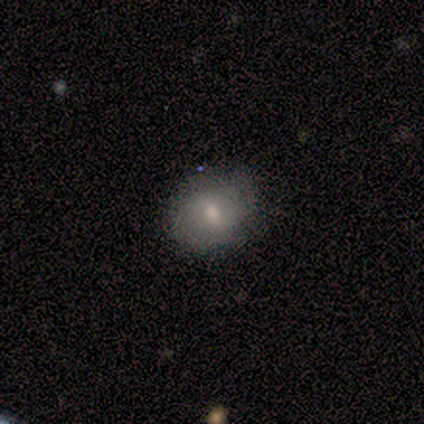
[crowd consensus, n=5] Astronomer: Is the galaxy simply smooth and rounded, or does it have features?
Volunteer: smooth — 80%.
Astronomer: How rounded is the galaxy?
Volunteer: round — 50%, tied with in between at 50%.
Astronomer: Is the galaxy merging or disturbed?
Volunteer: none — 60% (runner-up: minor disturbance, 40%).